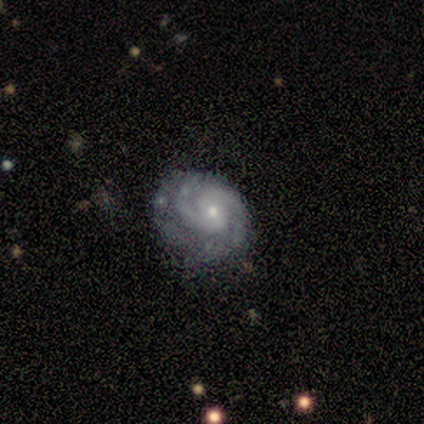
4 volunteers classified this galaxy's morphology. Smooth or featured? featured or disk (100%)
Edge-on disk? no (100%)
Bar? no (100%)
Spiral arms? yes (100%)
Spiral winding? tight (50%, tied with medium)
Spiral arm count? 2 (75%)
Bulge size? moderate (50%, tied with small)
Merging? none (75%)